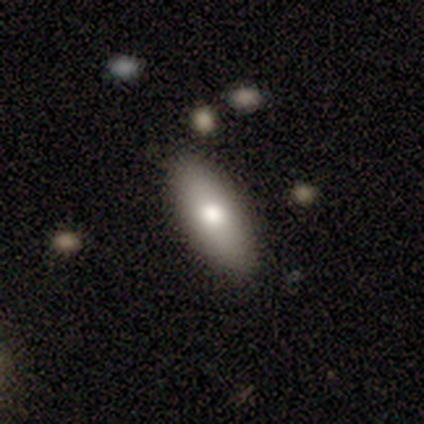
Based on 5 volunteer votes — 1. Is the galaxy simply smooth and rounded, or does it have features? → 100% smooth, 0% featured or disk, 0% star or artifact.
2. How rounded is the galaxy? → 60% in between, 40% cigar-shaped, 0% round.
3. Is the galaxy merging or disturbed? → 100% none, 0% minor disturbance, 0% major disturbance, 0% merger.